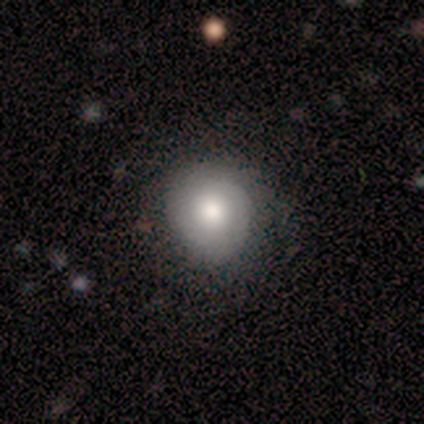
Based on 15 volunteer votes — Overall: smooth (87%). How rounded: round (77%). Merging: none (73%).